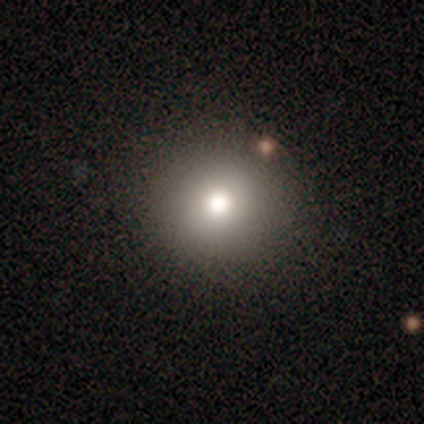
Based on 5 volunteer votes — Overall: smooth (80%). How rounded: round (75%). Merging: none (80%).